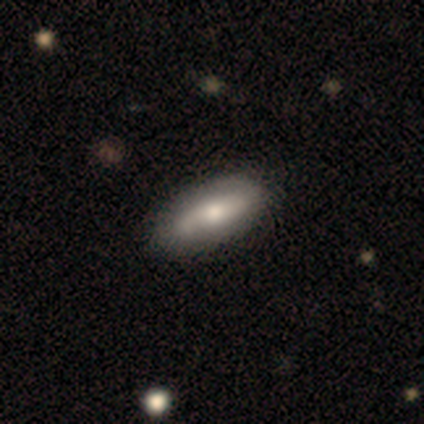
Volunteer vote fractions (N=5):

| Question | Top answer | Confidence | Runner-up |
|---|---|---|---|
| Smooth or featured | featured or disk | 60% | smooth (40%) |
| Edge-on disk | no | 100% | — |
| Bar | strong | 67% | no (33%) |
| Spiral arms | yes | 100% | — |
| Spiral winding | loose | 67% | medium (33%) |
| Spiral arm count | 2 | 100% | — |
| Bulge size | moderate | 67% | small (33%) |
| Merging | none | 80% | minor disturbance (20%) |